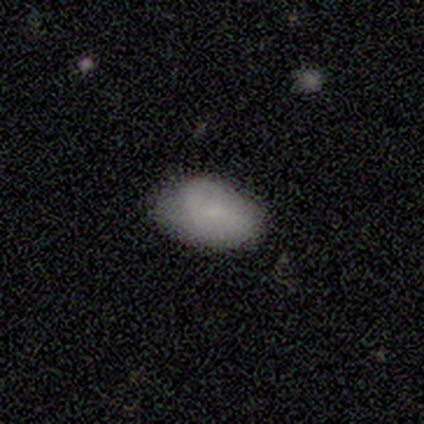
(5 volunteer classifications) A smooth galaxy with no disk features (100%) that is in between round and cigar-shaped (100%).

Vote fractions:
- Smooth or featured? smooth: 100% / featured or disk: 0% / star or artifact: 0%
- How rounded? in between: 100% / round: 0% / cigar-shaped: 0%
- Merging? none: 100% / minor disturbance: 0% / major disturbance: 0% / merger: 0%